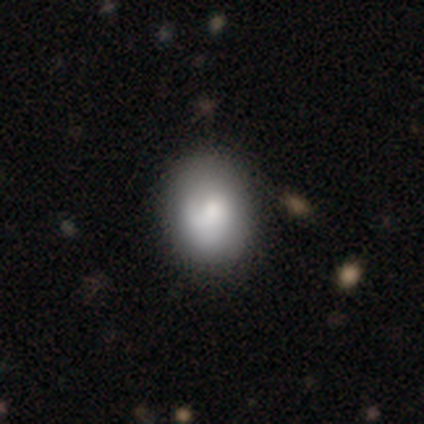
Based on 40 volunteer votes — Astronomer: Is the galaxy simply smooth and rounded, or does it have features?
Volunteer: smooth — 75%.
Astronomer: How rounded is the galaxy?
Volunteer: in between — 60% (runner-up: round, 40%).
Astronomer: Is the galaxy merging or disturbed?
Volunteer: none — 60%.